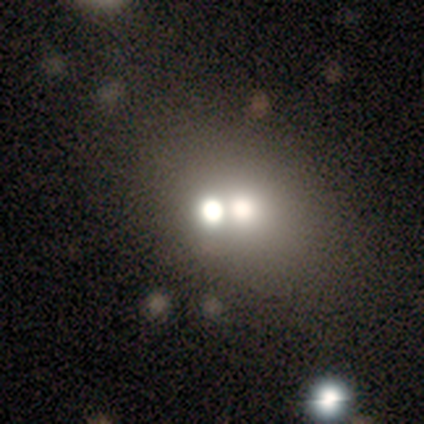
smooth 80%, featured or disk 20%, star or artifact 0%. Down the decision tree: how rounded — round (75%); merging — none (80%).